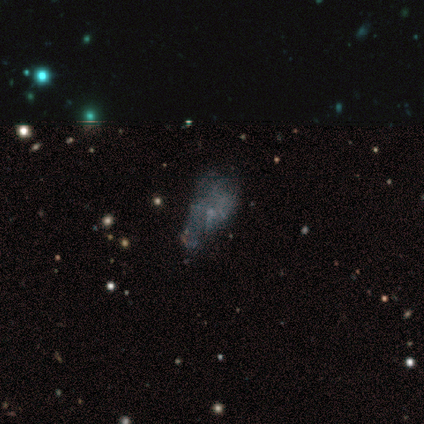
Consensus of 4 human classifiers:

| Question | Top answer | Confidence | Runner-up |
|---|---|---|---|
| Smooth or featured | featured or disk | 100% | — |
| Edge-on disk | no | 100% | — |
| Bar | no | 100% | — |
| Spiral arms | no | 100% | — |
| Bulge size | none | 100% | — |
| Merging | minor disturbance | 75% | none (25%) |